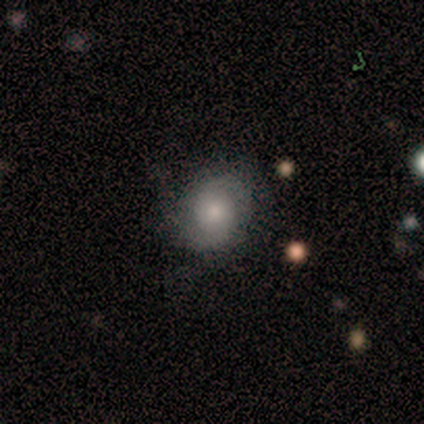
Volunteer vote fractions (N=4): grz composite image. It shows a smooth galaxy with no disk features (50%) that is round (100%). Merging: none (100%).